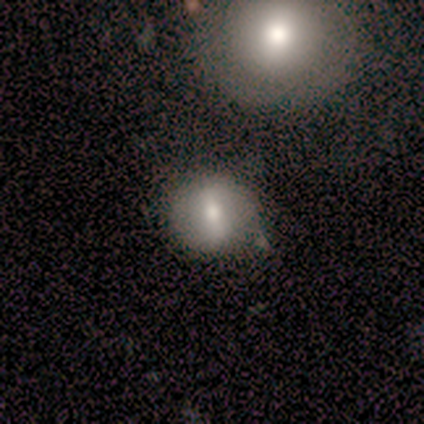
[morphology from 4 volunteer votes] Smooth or featured?
  - smooth: 50% * (tied)
  - featured or disk: 50% * (tied)
  - star or artifact: 0%
How rounded?
  - round: 100% *
  - in between: 0%
  - cigar-shaped: 0%
Merging?
  - none: 75% *
  - minor disturbance: 25%
  - major disturbance: 0%
  - merger: 0%